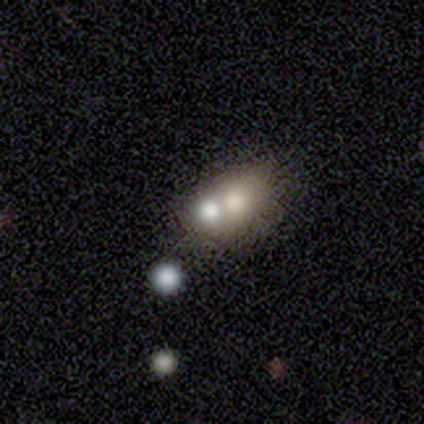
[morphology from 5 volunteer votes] Volunteers were most divided on "how rounded": in between: 75%, round: 25%, cigar-shaped: 0%. More confident: merging — merger (100%); smooth or featured — smooth (80%).